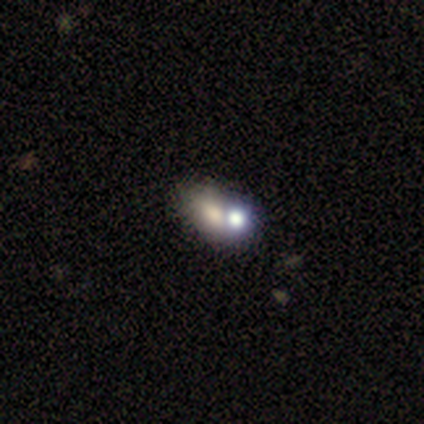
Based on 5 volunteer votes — Overall: star or artifact (60%; smooth 40%).